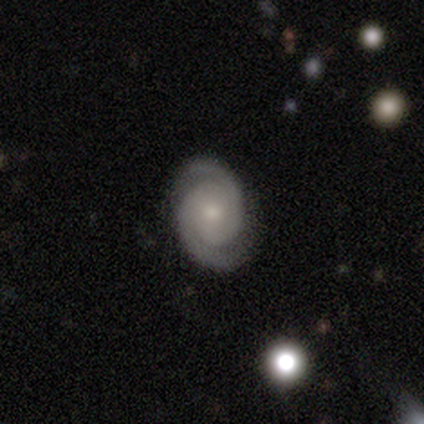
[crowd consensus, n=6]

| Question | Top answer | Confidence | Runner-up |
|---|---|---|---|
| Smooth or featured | featured or disk | 83% | smooth (17%) |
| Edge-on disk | no | 100% | — |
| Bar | no | 80% | weak (20%) |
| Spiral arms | yes | 100% | — |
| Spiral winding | tight | 80% | medium (20%) |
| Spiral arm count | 2 | 100% | — |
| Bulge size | moderate | 80% | small (20%) |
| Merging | none | 83% | minor disturbance (17%) |